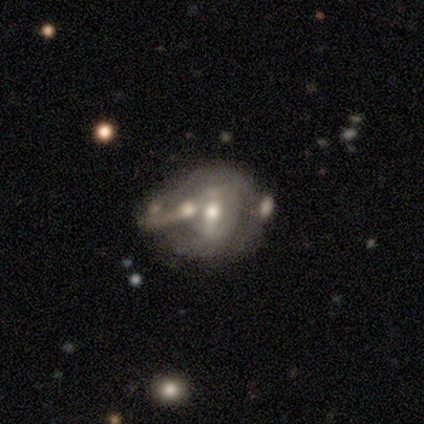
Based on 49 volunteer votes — smooth_or_featured: featured or disk (p=0.65) [alt: smooth p=0.27]
disk_edge_on: no (p=1.00)
bar: weak (p=0.50) [alt: strong p=0.31]
has_spiral_arms: no (p=0.69) [alt: yes p=0.31]
bulge_size: moderate (p=0.72) [alt: small p=0.19]
merging: none (p=0.31) [tied with: merger p=0.31]